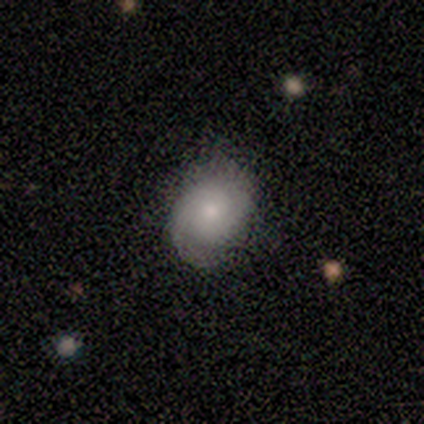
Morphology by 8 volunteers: Smooth or featured?
  - featured or disk: 62% *
  - smooth: 38%
  - star or artifact: 0%
Edge-on disk?
  - no: 100% *
  - yes: 0%
Bar?
  - no: 100% *
  - strong: 0%
  - weak: 0%
Spiral arms?
  - yes: 80% *
  - no: 20%
Spiral winding?
  - tight: 75% *
  - medium: 25%
  - loose: 0%
Spiral arm count?
  - 2: 100% *
  - 1: 0%
  - 3: 0%
  - 4: 0%
  - more than 4: 0%
  - can't tell: 0%
Bulge size?
  - moderate: 80% *
  - small: 20%
  - dominant: 0%
  - large: 0%
  - none: 0%
Merging?
  - none: 62% *
  - minor disturbance: 38%
  - major disturbance: 0%
  - merger: 0%